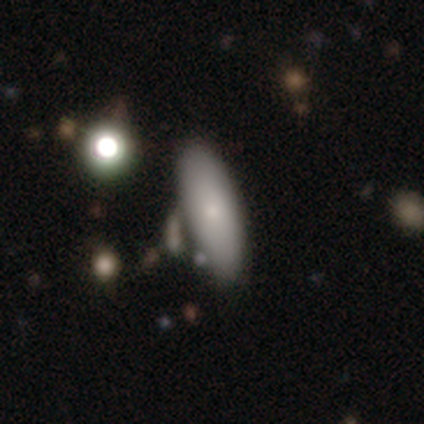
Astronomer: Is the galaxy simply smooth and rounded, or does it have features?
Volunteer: smooth — 81%.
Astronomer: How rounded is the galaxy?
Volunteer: in between — 72%.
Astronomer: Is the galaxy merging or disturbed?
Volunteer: none — 32% (runner-up: merger, 20%).